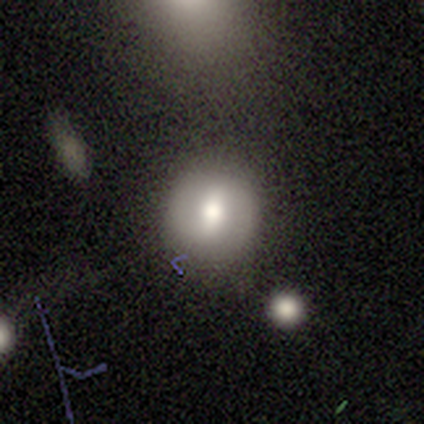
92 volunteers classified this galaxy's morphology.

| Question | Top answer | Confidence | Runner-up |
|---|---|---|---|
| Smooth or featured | smooth | 58% | featured or disk (33%) |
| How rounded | round | 83% | in between (17%) |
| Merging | none | 67% | minor disturbance (19%) |